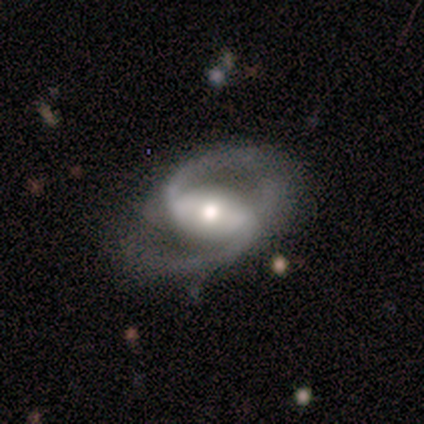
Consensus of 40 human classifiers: smooth-or-featured: featured or disk: 92% | smooth: 5% | star or artifact: 2%
  disk-edge-on: no: 92% | yes: 8%
    bar: strong: 68% | no: 18% | weak: 15%
    has-spiral-arms: yes: 97% | no: 3%
      spiral-winding: medium: 61% | loose: 27% | tight: 12%
      spiral-arm-count: 2: 94% | 1: 3% | can't tell: 3% | 3: 0% | 4: 0% | more than 4: 0%
    bulge-size: moderate: 71% | large: 15% | small: 15% | dominant: 0% | none: 0%
  merging: none: 56% | minor disturbance: 28% | major disturbance: 10% | merger: 5%